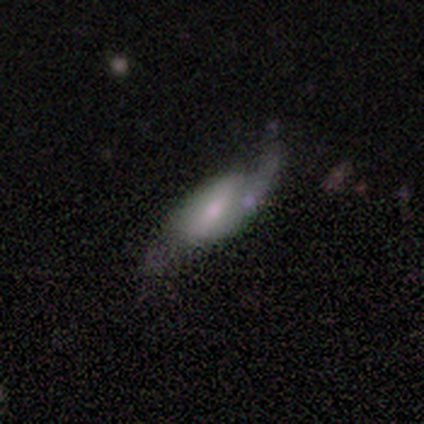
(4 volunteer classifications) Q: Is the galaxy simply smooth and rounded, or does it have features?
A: featured or disk — 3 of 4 (75%).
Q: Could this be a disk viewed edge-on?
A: no — 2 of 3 (67%).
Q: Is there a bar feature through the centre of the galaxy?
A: strong — 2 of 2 (100%).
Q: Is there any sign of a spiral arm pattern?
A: yes — 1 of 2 (50%, tied with no).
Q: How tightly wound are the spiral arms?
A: loose — 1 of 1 (100%).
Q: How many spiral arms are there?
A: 2 — 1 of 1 (100%).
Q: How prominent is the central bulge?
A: moderate — 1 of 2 (50%, tied with small).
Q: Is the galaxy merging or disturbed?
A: none — 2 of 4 (50%).